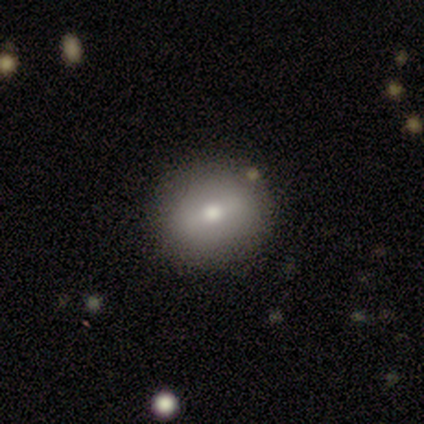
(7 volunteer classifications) Smooth or featured?
  - smooth: 71% *
  - featured or disk: 14%
  - star or artifact: 14%
How rounded?
  - round: 60% *
  - in between: 40%
  - cigar-shaped: 0%
Merging?
  - none: 83% *
  - merger: 17%
  - minor disturbance: 0%
  - major disturbance: 0%